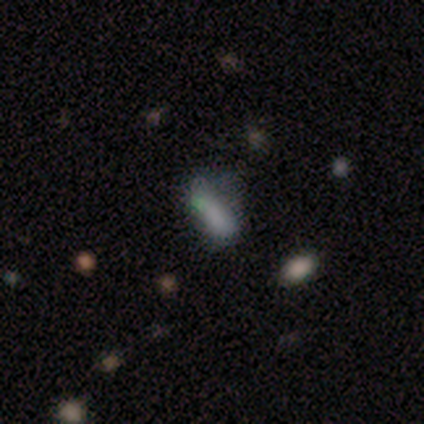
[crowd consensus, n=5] Smooth or featured: smooth — 60% (featured or disk — 20%)
How rounded: in between — 100%
Merging: minor disturbance — 50% (major disturbance — 25%)